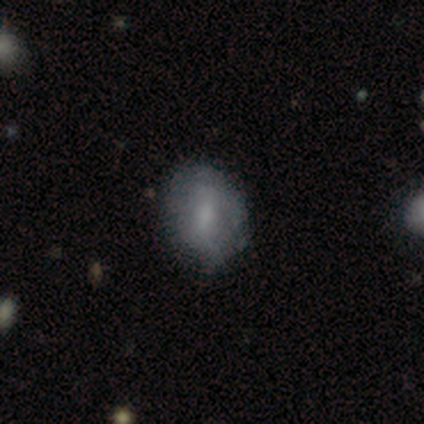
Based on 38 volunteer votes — This appears to be a smooth galaxy with no disk features (66%) that is round (52%). Merging: none (63%).